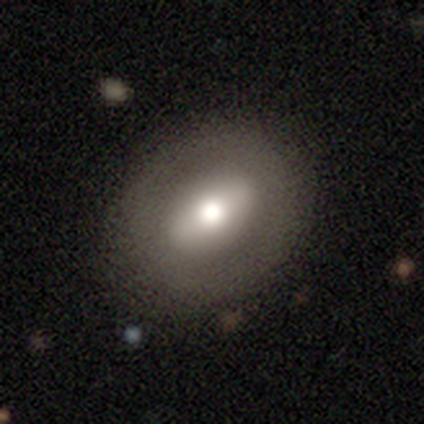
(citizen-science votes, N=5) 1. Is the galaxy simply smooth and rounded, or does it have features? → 60% smooth, 20% featured or disk, 20% star or artifact.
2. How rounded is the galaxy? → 67% in between, 33% cigar-shaped, 0% round.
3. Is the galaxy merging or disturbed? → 100% none, 0% minor disturbance, 0% major disturbance, 0% merger.